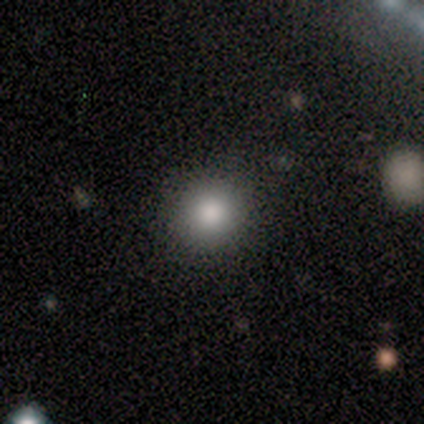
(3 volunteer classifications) This appears to be a smooth galaxy with no disk features (100%) that is round (100%). Merging: none (100%).